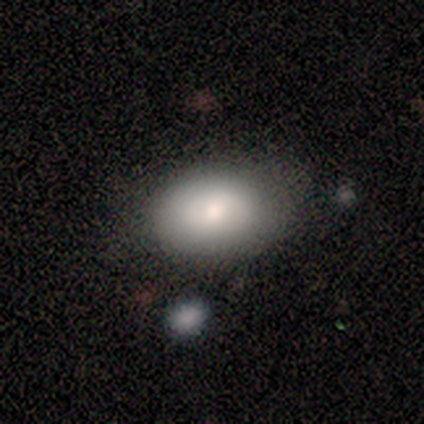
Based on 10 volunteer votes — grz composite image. It shows a smooth galaxy with no disk features (80%) that is in between round and cigar-shaped (88%). Merging: none (80%).